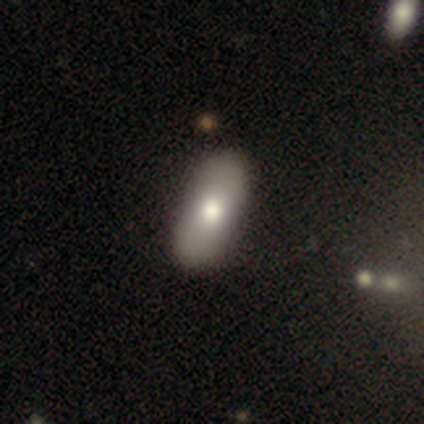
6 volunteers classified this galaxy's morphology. Q: Smooth or featured?
A: smooth (67%); runner-up: featured or disk (17%)
Q: How rounded?
A: in between (50%); tied with: cigar-shaped (50%)
Q: Merging?
A: none (80%); runner-up: major disturbance (20%)